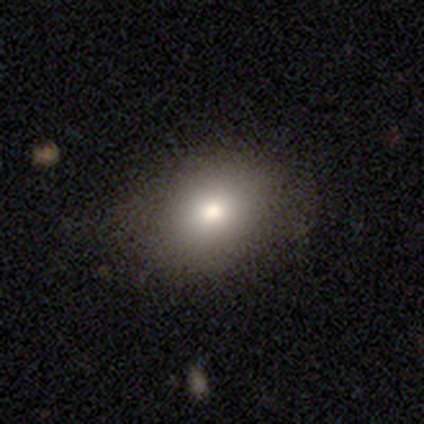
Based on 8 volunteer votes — Overall: smooth (88%). How rounded: in between (71%). Merging: none (75%).